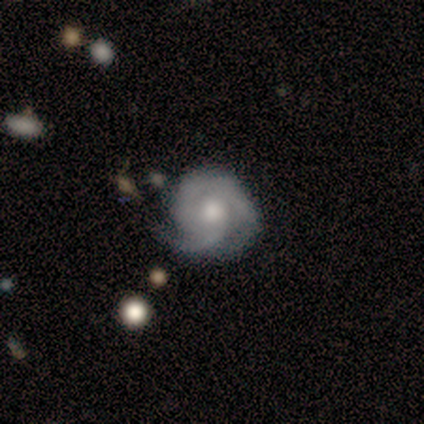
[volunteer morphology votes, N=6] Smooth or featured? 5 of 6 (83%) said featured or disk. Edge-on disk? 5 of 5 (100%) said no. Bar? 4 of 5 (80%) said no. Spiral arms? 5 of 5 (100%) said yes. Spiral winding? 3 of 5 (60%) said medium. Spiral arm count? 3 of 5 (60%) said 2. Bulge size? 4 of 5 (80%) said moderate. Merging? 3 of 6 (50%, tied with minor disturbance) said none.